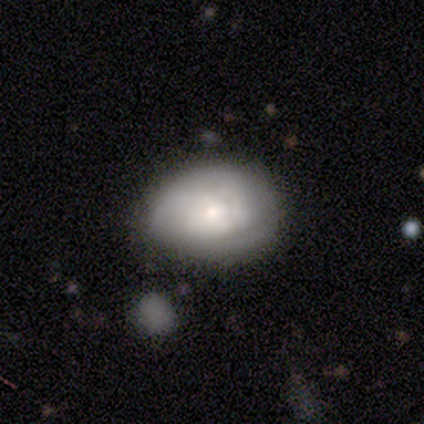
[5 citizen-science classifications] A featured or disk galaxy (60%) with no bar (67%), 2 (100%) tight (100%) spiral arms (67%) and a dominant central bulge (33%, tied with moderate and small). Merging: none (75%).